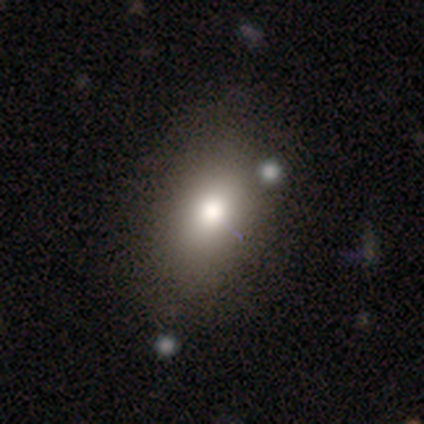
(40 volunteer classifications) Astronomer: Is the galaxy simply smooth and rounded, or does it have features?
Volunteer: smooth — 85%.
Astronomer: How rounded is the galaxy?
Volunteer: in between — 97%.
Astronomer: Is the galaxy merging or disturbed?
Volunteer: none — 64%.